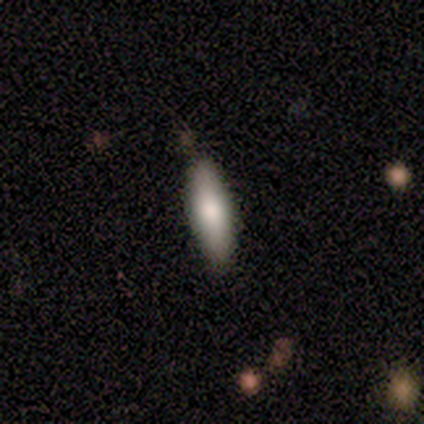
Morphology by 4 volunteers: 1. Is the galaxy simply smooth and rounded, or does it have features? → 75% smooth, 25% featured or disk, 0% star or artifact.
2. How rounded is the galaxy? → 100% cigar-shaped, 0% round, 0% in between.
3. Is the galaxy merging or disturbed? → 100% none, 0% minor disturbance, 0% major disturbance, 0% merger.